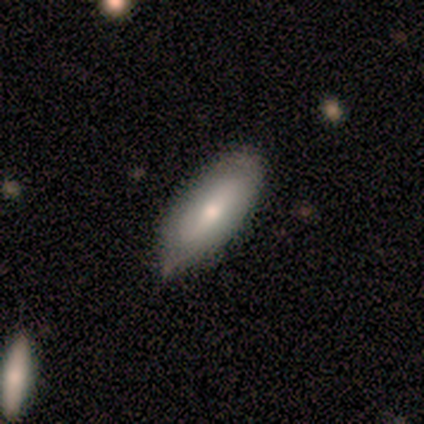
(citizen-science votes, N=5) This is likely a smooth galaxy (60%). How rounded: clearly in between (100%). Merging: likely minor disturbance (60%).